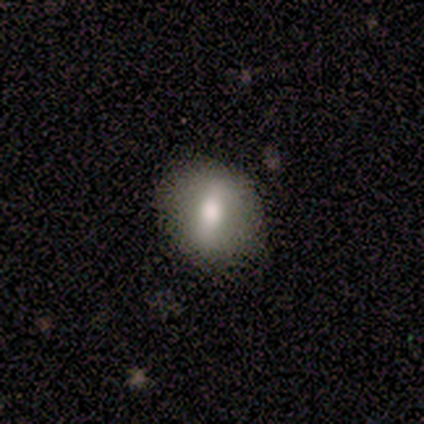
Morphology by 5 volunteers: smooth_or_featured: smooth (p=0.60) [alt: featured or disk p=0.20]
how_rounded: in between (p=0.67) [alt: round p=0.33]
merging: none (p=0.50) [tied with: minor disturbance p=0.50]